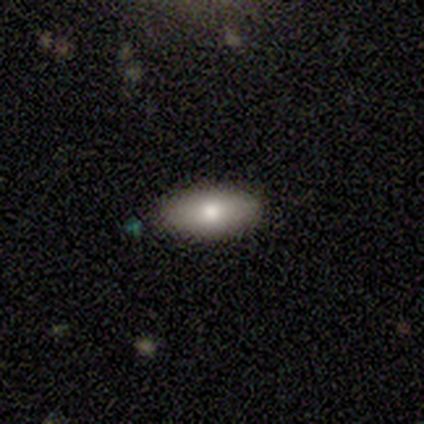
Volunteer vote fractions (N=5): Morphology: type=smooth (80%); roundness=in between (75%); merging=none (80%).